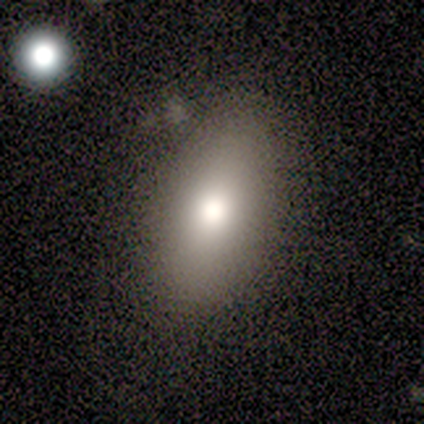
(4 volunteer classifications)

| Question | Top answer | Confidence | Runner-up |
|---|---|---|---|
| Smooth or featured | smooth | 75% | featured or disk (25%) |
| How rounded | in between | 100% | — |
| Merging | none | 75% | minor disturbance (25%) |